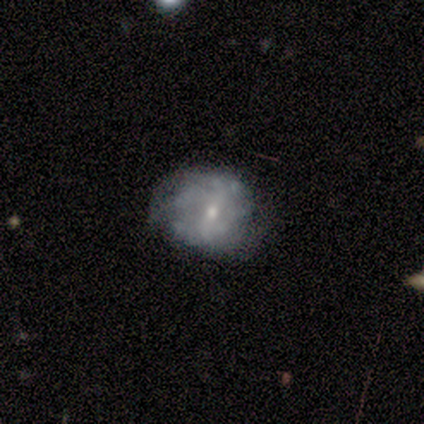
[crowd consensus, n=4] This appears to be a smooth galaxy with no disk features (75%) that is round (67%). Merging: minor disturbance (50%).